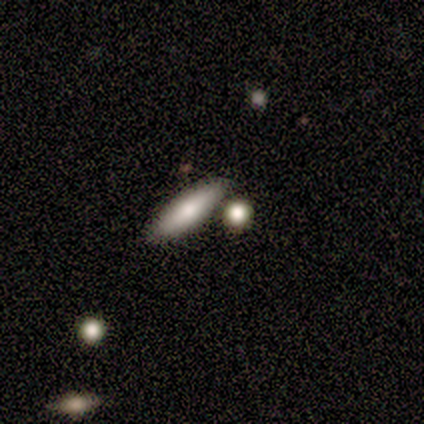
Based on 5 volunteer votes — A smooth galaxy with no disk features (60%) that is in between round and cigar-shaped (67%).

Vote fractions:
- Smooth or featured? smooth: 60% / featured or disk: 40% / star or artifact: 0%
- How rounded? in between: 67% / cigar-shaped: 33% / round: 0%
- Merging? none: 80% / merger: 20% / minor disturbance: 0% / major disturbance: 0%